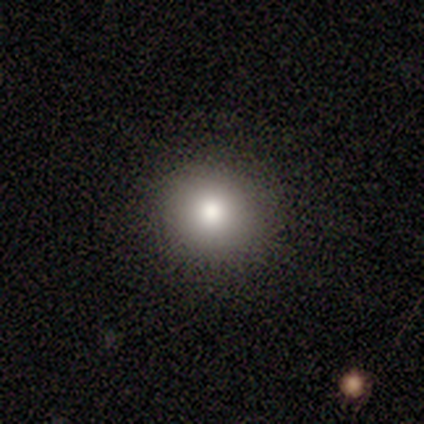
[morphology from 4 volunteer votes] A smooth galaxy with no disk features (100%) that is round (100%). Merging: none (100%).